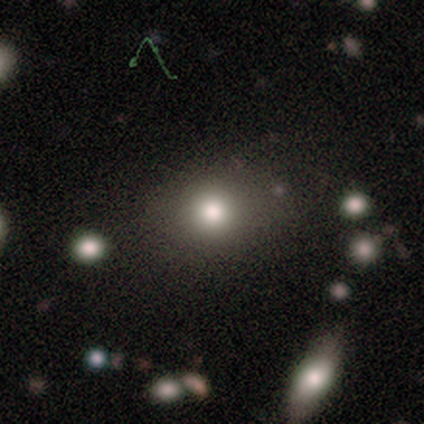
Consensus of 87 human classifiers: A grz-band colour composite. It shows a smooth galaxy with no disk features (62%) that is round (65%). Merging: none (78%).